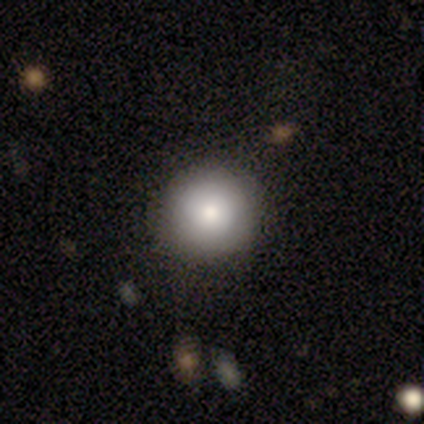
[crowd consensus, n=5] A smooth galaxy with no disk features (100%) that is round (100%).

Vote fractions:
- Smooth or featured? smooth: 100% / featured or disk: 0% / star or artifact: 0%
- How rounded? round: 100% / in between: 0% / cigar-shaped: 0%
- Merging? none: 100% / minor disturbance: 0% / major disturbance: 0% / merger: 0%